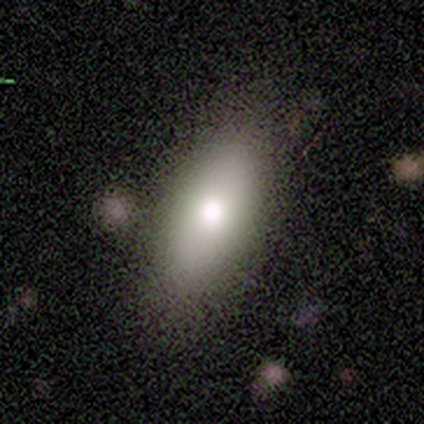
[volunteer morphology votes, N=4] This is likely a smooth galaxy (75%). How rounded: likely in between (67%). Merging: possibly minor disturbance (50%).